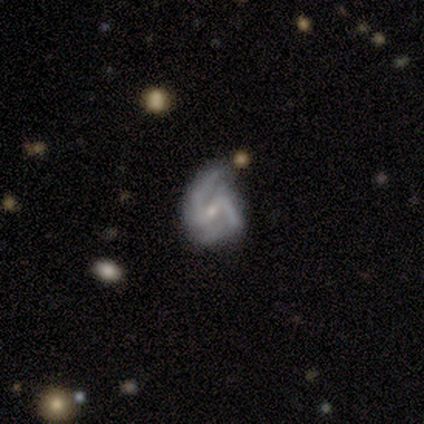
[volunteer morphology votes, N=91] Smooth or featured? featured or disk (85%)
Edge-on disk? no (99%)
Bar? weak (59%)
Spiral arms? yes (97%)
Spiral winding? medium (54%)
Spiral arm count? 2 (59%)
Bulge size? small (83%)
Merging? none (44%, tied with minor disturbance)